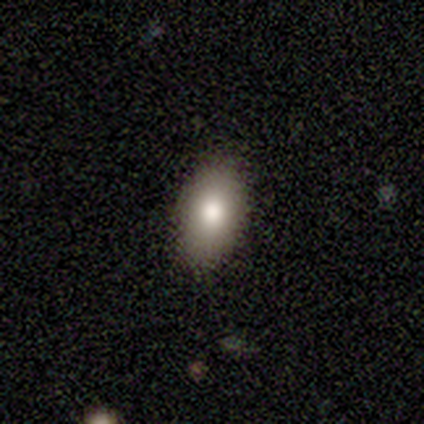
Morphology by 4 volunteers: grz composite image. It shows a smooth galaxy with no disk features (100%) that is in between round and cigar-shaped (100%). Merging: none (75%).